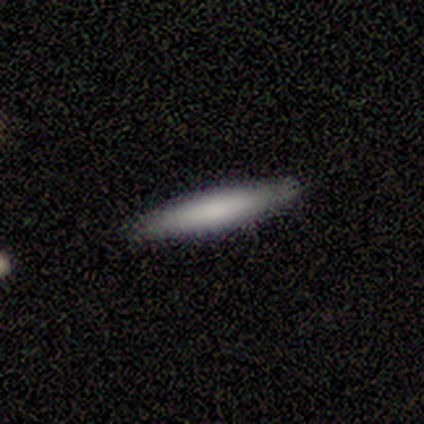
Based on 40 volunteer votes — Smooth or featured: smooth — 72% (featured or disk — 25%)
How rounded: cigar-shaped — 100%
Merging: none — 90% (minor disturbance — 10%)